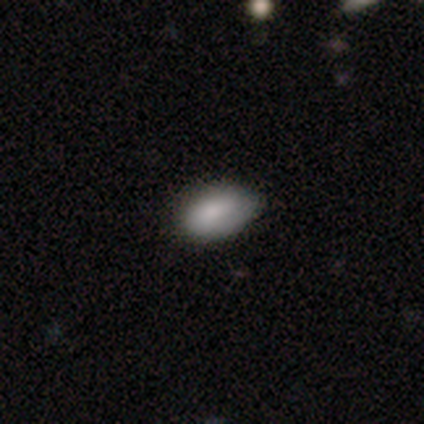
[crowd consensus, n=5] Smooth or featured? 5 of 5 (100%) said smooth. How rounded? 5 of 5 (100%) said in between. Merging? 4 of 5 (80%) said none.